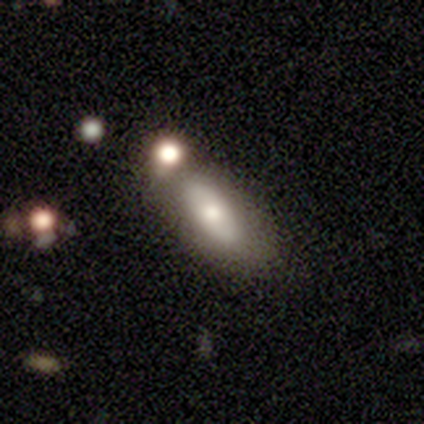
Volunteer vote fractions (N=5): smooth 80%, star or artifact 20%, featured or disk 0%. Down the decision tree: how rounded — in between (100%); merging — none (50%, tied with merger).